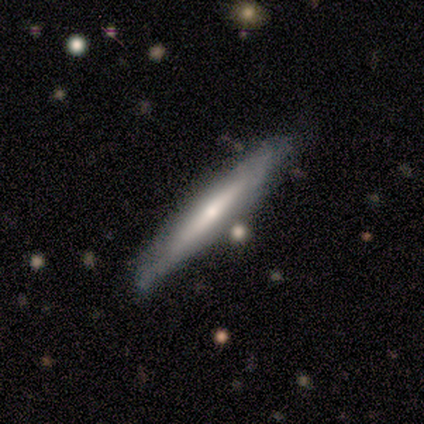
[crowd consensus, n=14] Q: Smooth or featured?
A: featured or disk (64%); runner-up: smooth (36%)
Q: Edge-on disk?
A: yes (89%); runner-up: no (11%)
Q: Edge-on bulge?
A: rounded (88%); runner-up: none (12%)
Q: Merging?
A: none (86%); runner-up: minor disturbance (14%)